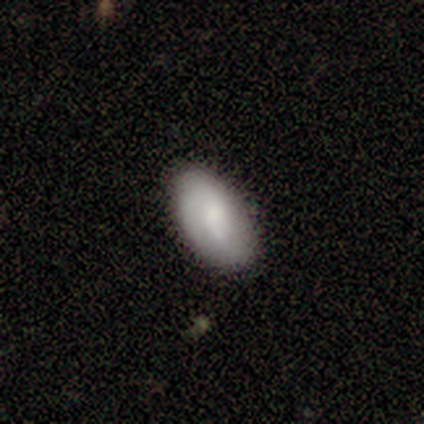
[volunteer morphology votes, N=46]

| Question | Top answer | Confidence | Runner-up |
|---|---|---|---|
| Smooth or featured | smooth | 50% | featured or disk (46%) |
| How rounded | in between | 96% | round (4%) |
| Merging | none | 82% | minor disturbance (16%) |